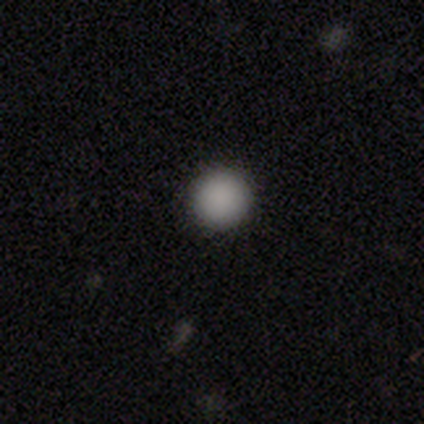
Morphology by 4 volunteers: Overall: smooth (100%). How rounded: round (75%). Merging: none (75%).